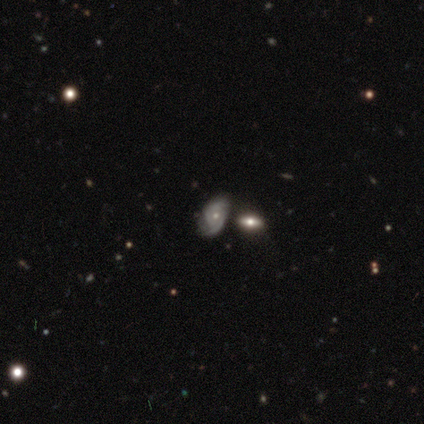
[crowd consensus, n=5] A featured or disk galaxy (60%) with no bar (100%), tight (67%) spiral arms (100%) and a moderate central bulge (67%). Merging: none (50%).